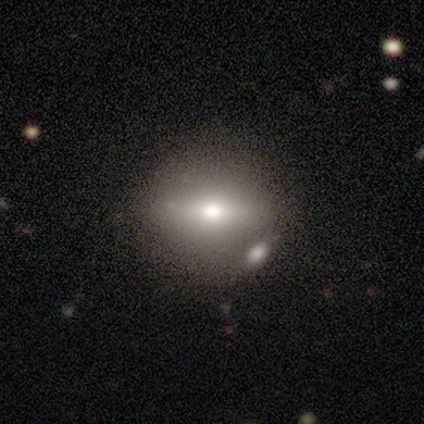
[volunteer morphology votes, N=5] A smooth galaxy with no disk features (60%) that is round (67%). Merging: none (80%).